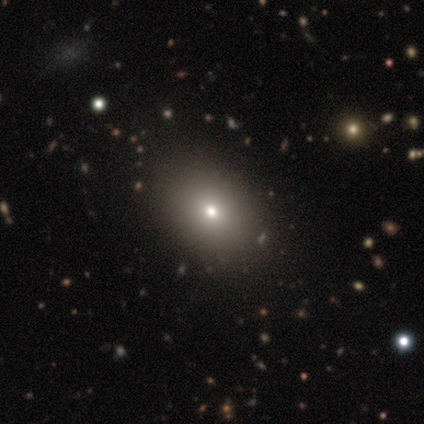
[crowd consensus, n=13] smooth-or-featured: smooth: 69% | star or artifact: 31% | featured or disk: 0%
  how-rounded: in between: 78% | round: 22% | cigar-shaped: 0%
  merging: none: 100% | minor disturbance: 0% | major disturbance: 0% | merger: 0%